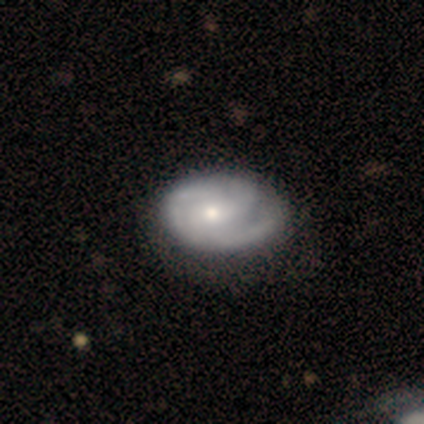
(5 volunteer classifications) featured or disk 60%, smooth 20%, star or artifact 20%. Down the decision tree: edge-on disk — no (100%); bar — no (67%); spiral arms — yes (67%); spiral arm count — 2 (50%, tied with 3); spiral winding — tight (100%); bulge size — moderate (100%); merging — none (75%).